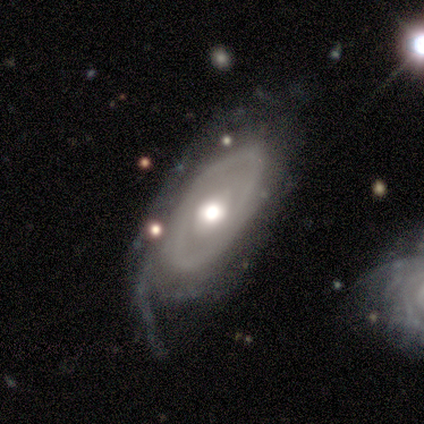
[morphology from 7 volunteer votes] A featured or disk galaxy (100%) with no bar (100%), medium (50%) spiral arms (57%) and a moderate central bulge (57%).

Vote fractions:
- Smooth or featured? featured or disk: 100% / smooth: 0% / star or artifact: 0%
- Edge-on disk? no: 100% / yes: 0%
- Bar? no: 100% / strong: 0% / weak: 0%
- Spiral arms? yes: 57% / no: 43%
- Spiral winding? medium: 50% / tight: 25% / loose: 25%
- Spiral arm count? can't tell: 75% / 1: 25% / 2: 0% / 3: 0% / 4: 0% / more than 4: 0%
- Bulge size? moderate: 57% / small: 29% / large: 14% / dominant: 0% / none: 0%
- Merging? none: 71% / minor disturbance: 29% / major disturbance: 0% / merger: 0%